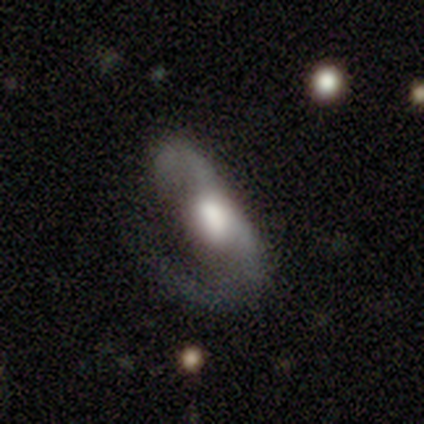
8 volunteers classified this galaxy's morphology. smooth_or_featured: featured or disk (p=0.88) [alt: smooth p=0.12]
disk_edge_on: no (p=0.71) [alt: yes p=0.29]
bar: weak (p=0.60) [alt: strong p=0.20]
has_spiral_arms: yes (p=0.60) [alt: no p=0.40]
spiral_winding: loose (p=1.00)
spiral_arm_count: can't tell (p=1.00)
bulge_size: moderate (p=0.60) [alt: large p=0.40]
merging: major disturbance (p=0.62) [alt: minor disturbance p=0.25]